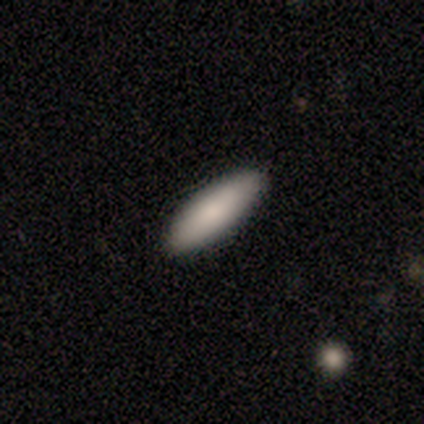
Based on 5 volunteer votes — A smooth galaxy with no disk features (80%) that is cigar-shaped (75%). Merging: none (100%).